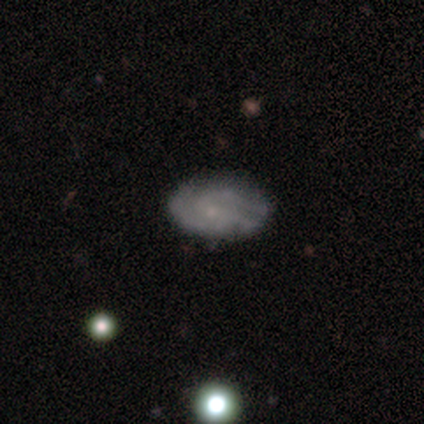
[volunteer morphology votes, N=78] Q: Smooth or featured?
A: featured or disk (59%); runner-up: smooth (31%)
Q: Edge-on disk?
A: no (96%); runner-up: yes (4%)
Q: Bar?
A: no (82%); runner-up: weak (14%)
Q: Spiral arms?
A: yes (80%); runner-up: no (20%)
Q: Spiral winding?
A: tight (49%); runner-up: medium (40%)
Q: Spiral arm count?
A: 3 (54%); runner-up: 2 (31%)
Q: Bulge size?
A: small (59%); runner-up: none (34%)
Q: Merging?
A: none (51%); runner-up: minor disturbance (10%)